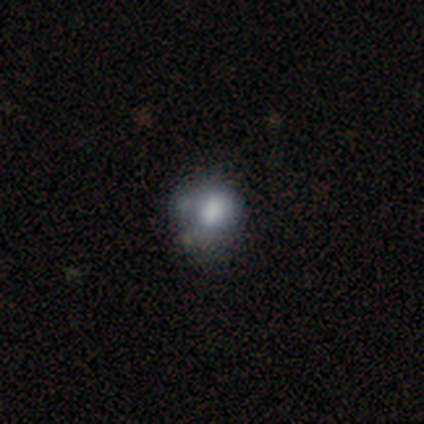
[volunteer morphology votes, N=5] smooth-or-featured: smooth: 60% | featured or disk: 40% | star or artifact: 0%
  how-rounded: in between: 67% | round: 33% | cigar-shaped: 0%
  merging: none: 60% | minor disturbance: 20% | merger: 20% | major disturbance: 0%